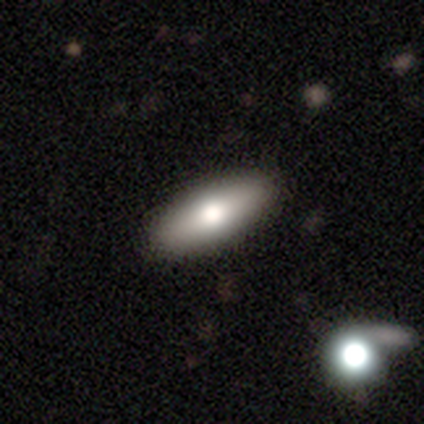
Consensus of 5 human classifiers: smooth_or_featured: smooth (p=0.80) [alt: featured or disk p=0.20]
how_rounded: cigar-shaped (p=0.50) [alt: round p=0.25]
merging: none (p=0.80) [alt: major disturbance p=0.20]